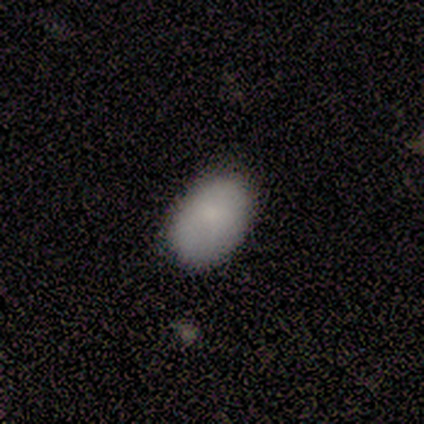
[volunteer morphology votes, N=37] This appears to be a smooth galaxy with no disk features (100%) that is in between round and cigar-shaped (95%). Merging: none (86%).